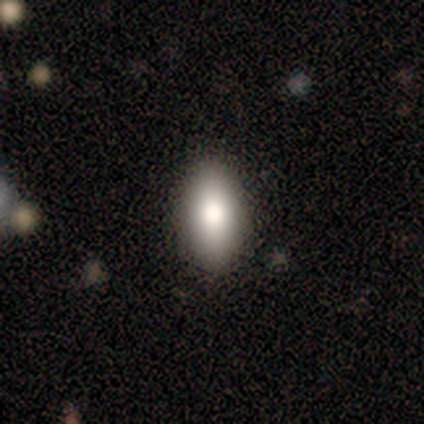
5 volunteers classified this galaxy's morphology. smooth-or-featured: smooth: 80% | featured or disk: 20% | star or artifact: 0%
  how-rounded: in between: 100% | round: 0% | cigar-shaped: 0%
  merging: none: 100% | minor disturbance: 0% | major disturbance: 0% | merger: 0%